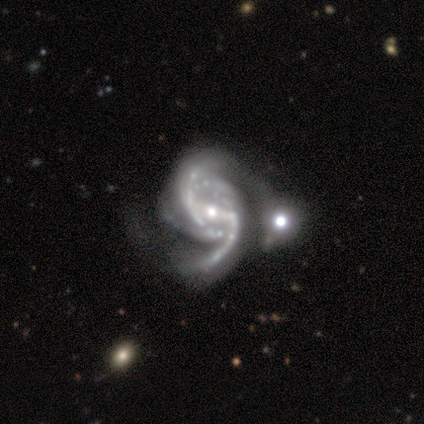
A featured or disk galaxy (100%) with a strong bar (40%, tied with weak), 2 (75%) tight (50%, tied with medium) spiral arms (80%) and a moderate central bulge (80%).

Vote fractions:
- Smooth or featured? featured or disk: 100% / smooth: 0% / star or artifact: 0%
- Edge-on disk? no: 100% / yes: 0%
- Bar? strong: 40% (tied) / weak: 40% (tied) / no: 20%
- Spiral arms? yes: 80% / no: 20%
- Spiral winding? tight: 50% (tied) / medium: 50% (tied) / loose: 0%
- Spiral arm count? 2: 75% / 4: 25% / 1: 0% / 3: 0% / more than 4: 0% / can't tell: 0%
- Bulge size? moderate: 80% / large: 20% / dominant: 0% / small: 0% / none: 0%
- Merging? minor disturbance: 40% (tied) / merger: 40% (tied) / major disturbance: 20% / none: 0%